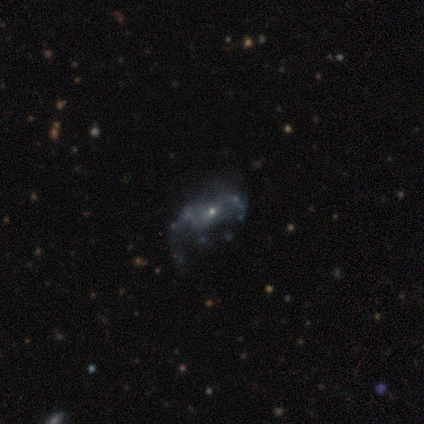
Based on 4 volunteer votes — This is clearly a featured or disk galaxy (100%). It is clearly not viewed edge-on (100%). Bar: clearly no (100%). Spiral arm pattern: likely no (75%). Central bulge: likely small (75%). Merging: possibly major disturbance (50%).